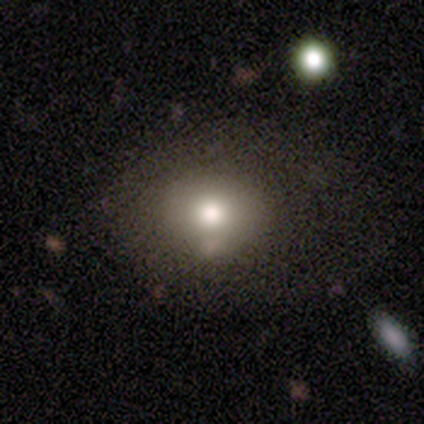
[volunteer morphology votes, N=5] smooth-or-featured: smooth: 80% | star or artifact: 20% | featured or disk: 0%
  how-rounded: round: 75% | in between: 25% | cigar-shaped: 0%
  merging: none: 75% | minor disturbance: 25% | major disturbance: 0% | merger: 0%